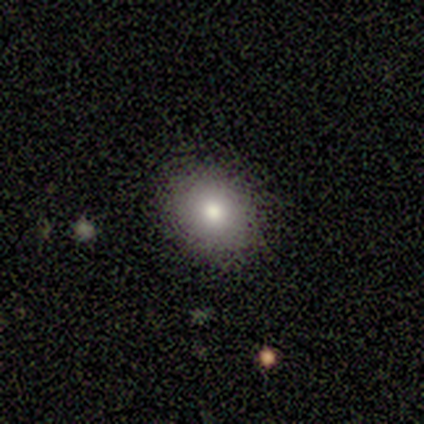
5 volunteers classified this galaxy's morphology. Overall: smooth (100%). How rounded: round (80%). Merging: none (100%).